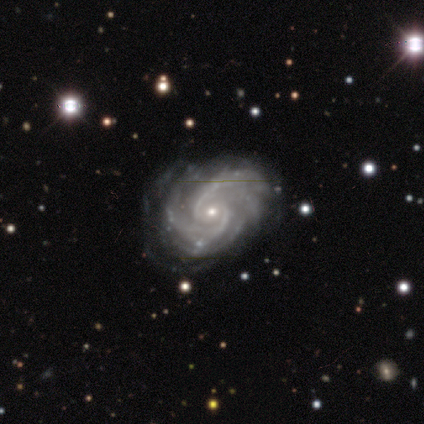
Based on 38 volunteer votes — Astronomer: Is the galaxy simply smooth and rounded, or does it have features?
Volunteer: featured or disk — 95%.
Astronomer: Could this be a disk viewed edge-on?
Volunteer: no — 97%.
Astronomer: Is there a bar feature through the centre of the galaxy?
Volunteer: no — 60%.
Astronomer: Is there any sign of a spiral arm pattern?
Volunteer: yes — 100%.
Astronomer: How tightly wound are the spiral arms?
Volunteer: tight — 60% (runner-up: medium, 40%).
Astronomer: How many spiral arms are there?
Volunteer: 2 — 51%.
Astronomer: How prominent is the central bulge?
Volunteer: small — 60% (runner-up: moderate, 40%).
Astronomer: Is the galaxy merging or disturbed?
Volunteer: minor disturbance — 24% (runner-up: none, 18%).